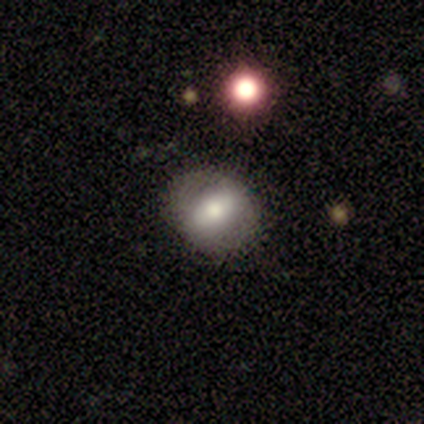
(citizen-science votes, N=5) smooth-or-featured: smooth: 80% | featured or disk: 20% | star or artifact: 0%
  how-rounded: round: 50% (tied) | in between: 50% (tied) | cigar-shaped: 0%
  merging: none: 100% | minor disturbance: 0% | major disturbance: 0% | merger: 0%